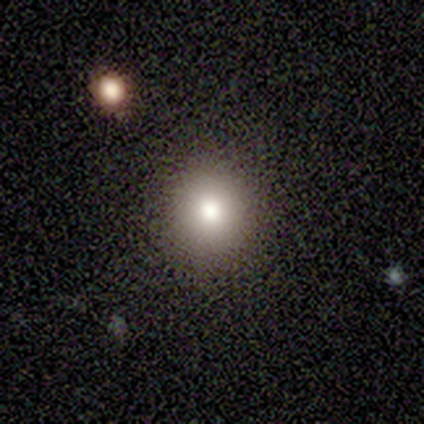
Smooth or featured? 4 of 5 (80%) said smooth. How rounded? 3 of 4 (75%) said round. Merging? 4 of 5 (80%) said none.